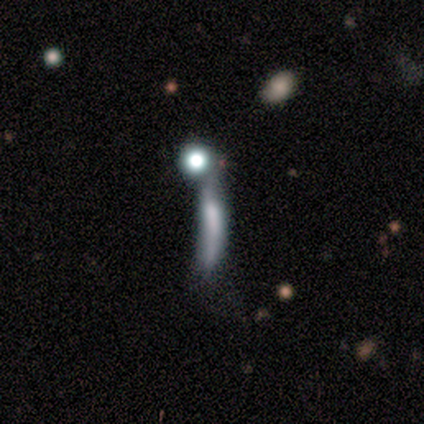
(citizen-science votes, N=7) This is possibly a smooth galaxy (57%). How rounded: likely cigar-shaped (75%). Merging: likely major disturbance (60%).